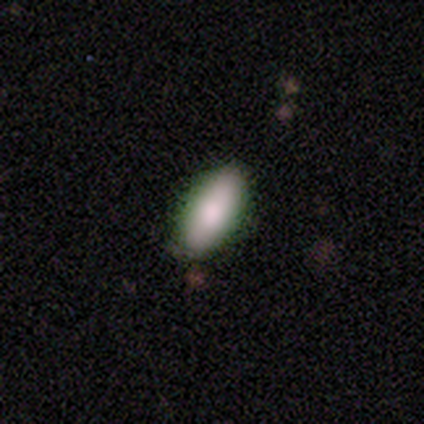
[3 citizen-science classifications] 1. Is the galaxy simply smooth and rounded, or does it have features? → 67% smooth, 33% featured or disk, 0% star or artifact.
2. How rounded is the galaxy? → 100% in between, 0% round, 0% cigar-shaped.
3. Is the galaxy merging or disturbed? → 100% none, 0% minor disturbance, 0% major disturbance, 0% merger.